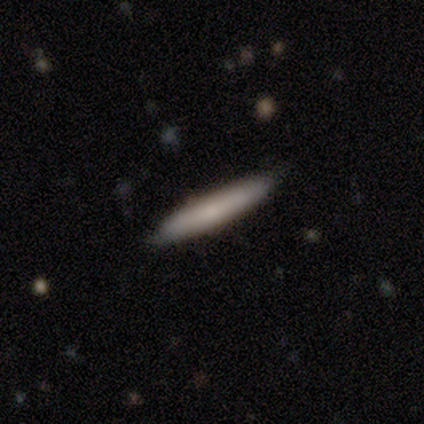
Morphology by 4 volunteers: A smooth galaxy with no disk features (75%) that is cigar-shaped (100%). Merging: none (100%).